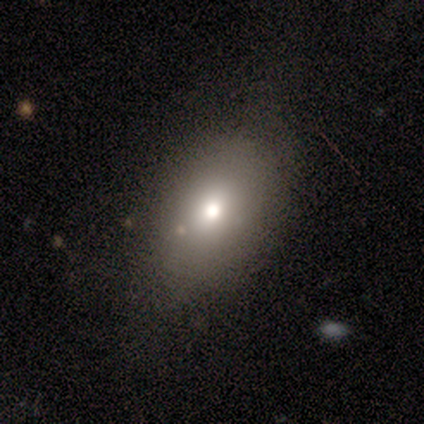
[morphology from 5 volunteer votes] A smooth galaxy with no disk features (80%) that is in between round and cigar-shaped (75%).

Vote fractions:
- Smooth or featured? smooth: 80% / featured or disk: 20% / star or artifact: 0%
- How rounded? in between: 75% / round: 25% / cigar-shaped: 0%
- Merging? none: 80% / minor disturbance: 20% / major disturbance: 0% / merger: 0%